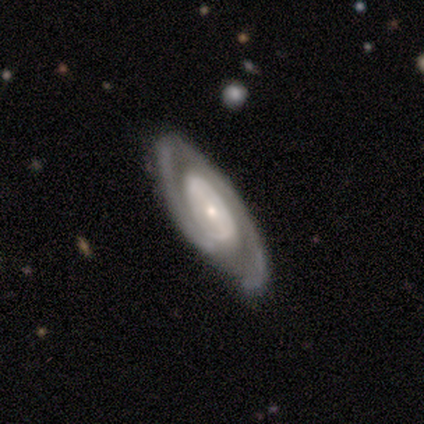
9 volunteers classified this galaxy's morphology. type=featured or disk (67%); edge-on=no (67%); bar=weak (50%, tied with no); spiral arms=yes (75%); winding=tight (67%); arm count=1 (33%, tied with 2 and can't tell); bulge=small (75%); merging=none (89%).